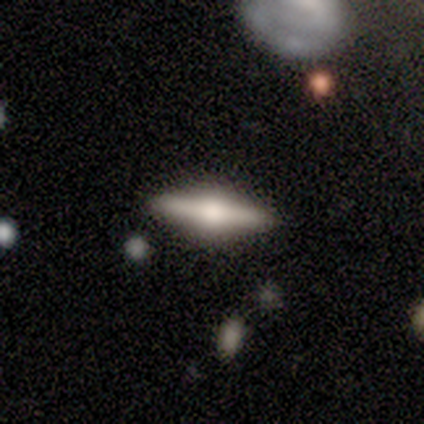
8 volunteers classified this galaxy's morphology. smooth-or-featured: featured or disk: 75% | smooth: 25% | star or artifact: 0%
  disk-edge-on: yes: 100% | no: 0%
    edge-on-bulge: rounded: 100% | boxy: 0% | none: 0%
  merging: none: 75% | minor disturbance: 12% | major disturbance: 12% | merger: 0%